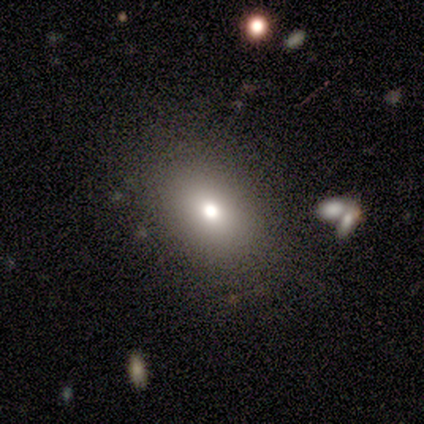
Smooth or featured?
  - smooth: 83% *
  - featured or disk: 17%
  - star or artifact: 0%
How rounded?
  - in between: 100% *
  - round: 0%
  - cigar-shaped: 0%
Merging?
  - minor disturbance: 50% *
  - none: 33%
  - merger: 17%
  - major disturbance: 0%